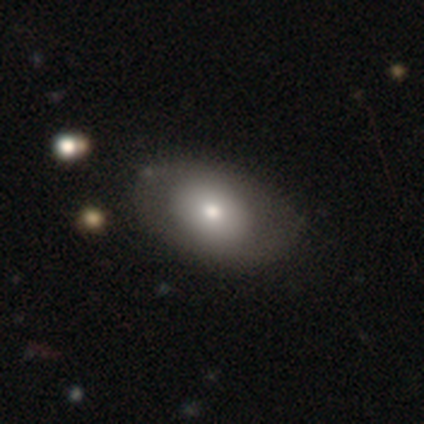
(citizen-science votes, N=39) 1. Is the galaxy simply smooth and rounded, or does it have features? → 64% smooth, 33% featured or disk, 3% star or artifact.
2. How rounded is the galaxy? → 84% in between, 16% round, 0% cigar-shaped.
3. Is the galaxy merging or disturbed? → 53% none, 8% minor disturbance, 5% major disturbance, 3% merger.